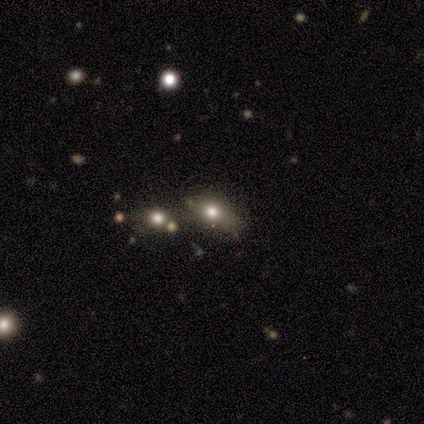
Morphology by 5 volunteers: featured or disk 40% (tied), star or artifact 40% (tied), smooth 20%. Down the decision tree: edge-on disk — no (100%); bar — weak (50%, tied with no); spiral arms — no (100%); bulge size — large (50%, tied with moderate); merging — none (33%, tied with minor disturbance and merger).